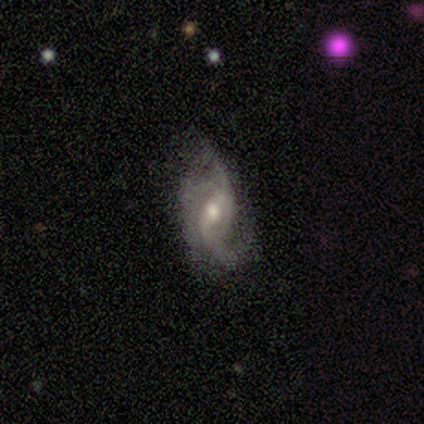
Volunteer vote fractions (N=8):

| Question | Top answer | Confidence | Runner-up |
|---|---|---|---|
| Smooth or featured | featured or disk | 88% | smooth (12%) |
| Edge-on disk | no | 100% | — |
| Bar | weak | 71% | no (29%) |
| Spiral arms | yes | 86% | no (14%) |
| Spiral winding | loose | 50% | tight (33%) |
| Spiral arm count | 3 | 50% | 2 (33%) |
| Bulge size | moderate | 57% | small (29%) |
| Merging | none | 100% | — |